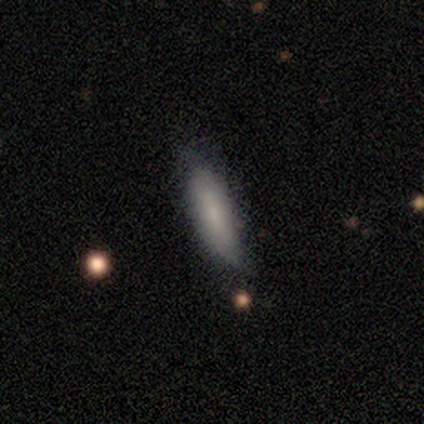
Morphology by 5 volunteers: A smooth galaxy with no disk features (80%) that is in between round and cigar-shaped (50%, tied with cigar-shaped). Merging: none (80%).